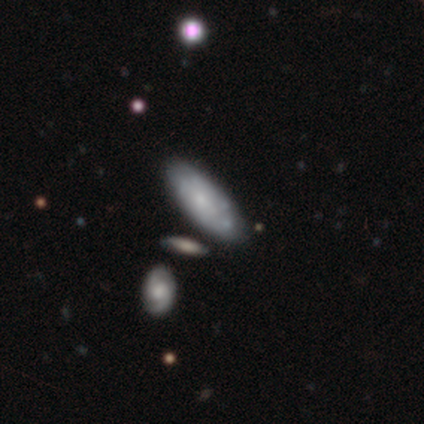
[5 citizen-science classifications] Q: Smooth or featured?
A: smooth (60%); runner-up: featured or disk (40%)
Q: How rounded?
A: in between (67%); runner-up: cigar-shaped (33%)
Q: Merging?
A: minor disturbance (60%); runner-up: none (40%)